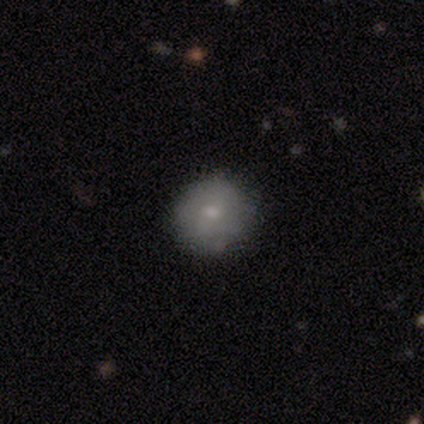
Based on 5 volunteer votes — This is likely a smooth galaxy (60%). How rounded: clearly round (100%). Merging: clearly none (80%).